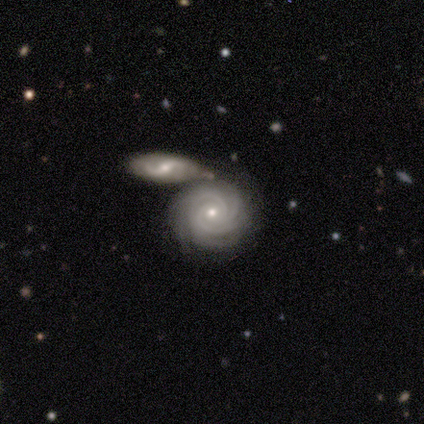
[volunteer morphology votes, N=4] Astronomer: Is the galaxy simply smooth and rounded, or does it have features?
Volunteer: featured or disk — 100%.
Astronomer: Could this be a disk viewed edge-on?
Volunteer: no — 100%.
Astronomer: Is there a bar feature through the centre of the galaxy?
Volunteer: no — 100%.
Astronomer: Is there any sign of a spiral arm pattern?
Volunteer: yes — 100%.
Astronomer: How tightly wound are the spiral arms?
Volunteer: tight — 100%.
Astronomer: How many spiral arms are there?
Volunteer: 3 — 50%.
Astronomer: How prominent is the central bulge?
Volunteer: small — 75%.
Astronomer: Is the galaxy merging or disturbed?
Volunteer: merger — 75%.